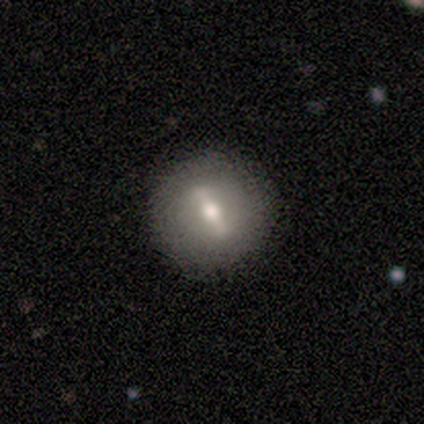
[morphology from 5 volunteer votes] Smooth or featured? 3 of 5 (60%) said featured or disk. Edge-on disk? 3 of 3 (100%) said no. Bar? 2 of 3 (67%) said weak. Spiral arms? 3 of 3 (100%) said no. Bulge size? 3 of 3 (100%) said moderate. Merging? 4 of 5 (80%) said none.